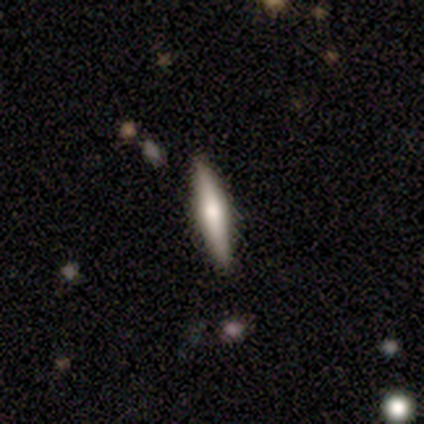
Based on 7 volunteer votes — smooth_or_featured: featured or disk (p=0.57) [alt: smooth p=0.43]
disk_edge_on: yes (p=1.00)
edge_on_bulge: rounded (p=1.00)
merging: none (p=0.86) [alt: minor disturbance p=0.14]